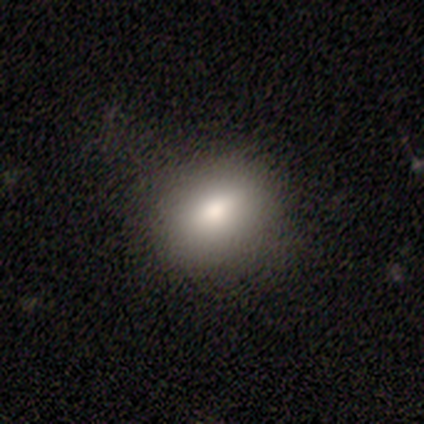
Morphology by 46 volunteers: type=smooth (87%); roundness=in between (62%); merging=none (84%).